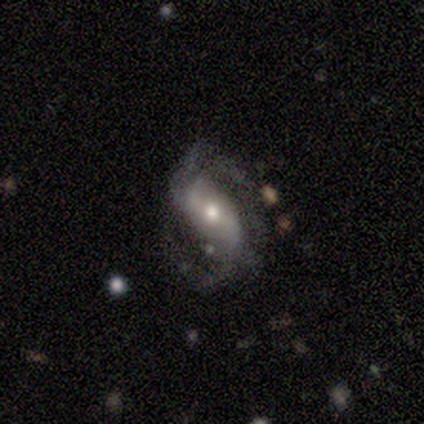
smooth_or_featured: featured or disk (p=1.00)
disk_edge_on: no (p=1.00)
bar: strong (p=0.80) [alt: no p=0.20]
has_spiral_arms: yes (p=1.00)
spiral_winding: tight (p=0.40) [tied with: medium p=0.40]
spiral_arm_count: 2 (p=1.00)
bulge_size: moderate (p=0.60) [alt: small p=0.40]
merging: none (p=0.40) [alt: minor disturbance p=0.20]